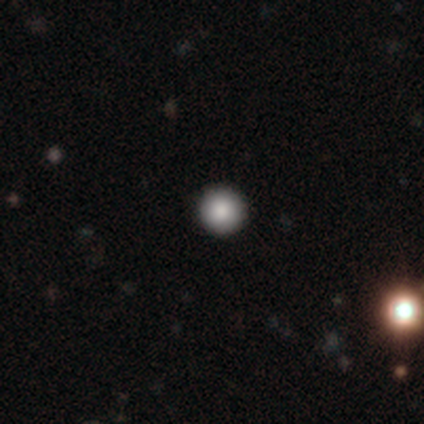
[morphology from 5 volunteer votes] Q: Smooth or featured?
A: smooth (80%); runner-up: star or artifact (20%)
Q: How rounded?
A: round (100%)
Q: Merging?
A: none (100%)